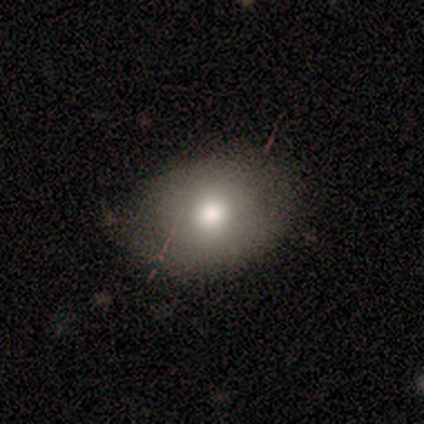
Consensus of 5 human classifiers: Morphology: type=smooth (100%); roundness=in between (80%); merging=none (40%, tied with minor disturbance).